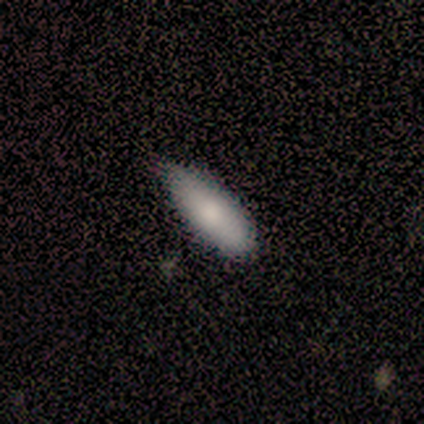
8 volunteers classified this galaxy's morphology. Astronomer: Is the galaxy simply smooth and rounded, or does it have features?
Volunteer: smooth — 100%.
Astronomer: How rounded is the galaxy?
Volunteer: in between — 50%, tied with cigar-shaped at 50%.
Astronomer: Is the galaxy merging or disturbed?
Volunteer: none — 75%.